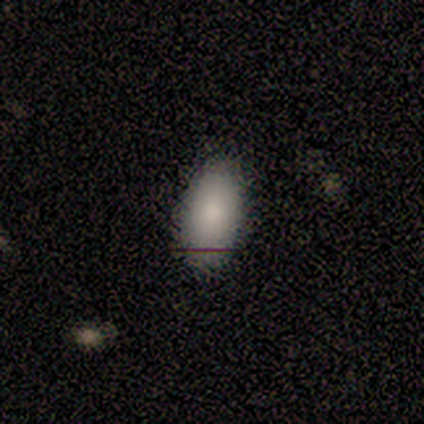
This appears to be a smooth galaxy with no disk features (100%) that is in between round and cigar-shaped (100%). Merging: none (80%).